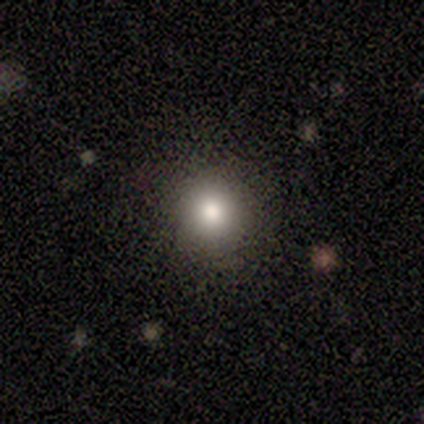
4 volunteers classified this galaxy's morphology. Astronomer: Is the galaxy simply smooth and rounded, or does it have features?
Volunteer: smooth — 75%.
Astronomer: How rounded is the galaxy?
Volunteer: round — 100%.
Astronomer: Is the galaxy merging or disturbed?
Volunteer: none — 100%.